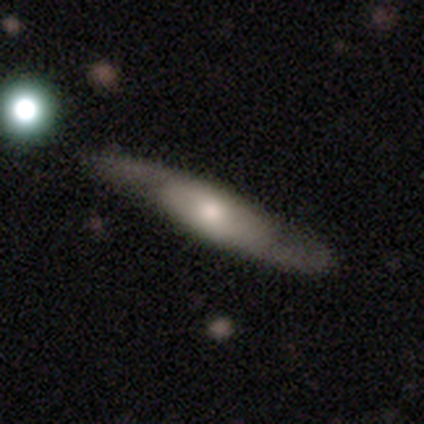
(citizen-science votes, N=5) smooth-or-featured: featured or disk: 80% | smooth: 20% | star or artifact: 0%
  disk-edge-on: yes: 100% | no: 0%
    edge-on-bulge: rounded: 75% | none: 25% | boxy: 0%
  merging: none: 100% | minor disturbance: 0% | major disturbance: 0% | merger: 0%